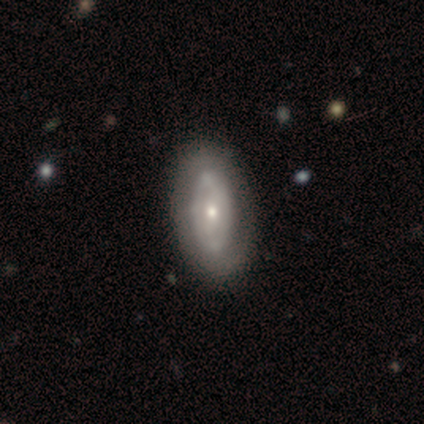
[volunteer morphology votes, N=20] A featured or disk galaxy (70%) with no bar (57%), tight (67%) spiral arms (64%) and a small central bulge (57%). Merging: none (75%).